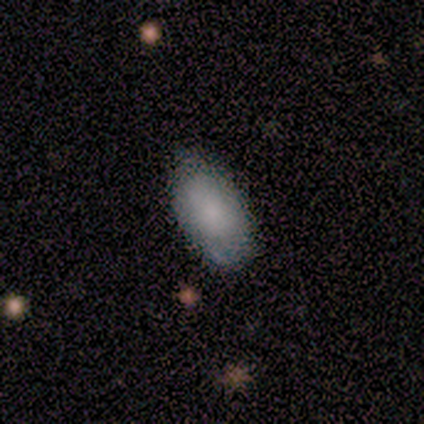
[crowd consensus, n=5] Q: Smooth or featured?
A: smooth (100%)
Q: How rounded?
A: in between (100%)
Q: Merging?
A: none (60%); runner-up: minor disturbance (40%)